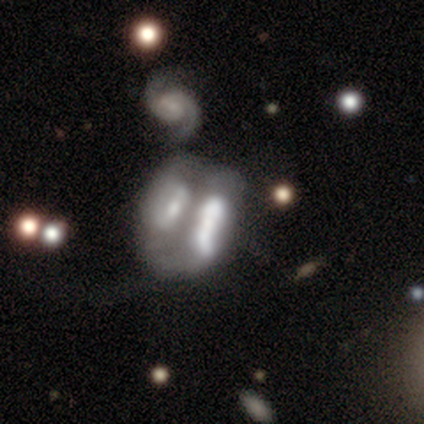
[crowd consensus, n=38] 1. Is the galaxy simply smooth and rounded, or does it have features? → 66% featured or disk, 26% smooth, 8% star or artifact.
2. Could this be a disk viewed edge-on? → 88% no, 12% yes.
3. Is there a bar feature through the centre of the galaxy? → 64% no, 27% strong, 9% weak.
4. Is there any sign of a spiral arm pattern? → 86% no, 14% yes.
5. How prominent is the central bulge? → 32% none, 23% small, 18% dominant, 18% large, 9% moderate.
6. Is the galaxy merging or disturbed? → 80% merger, 3% none, 3% minor disturbance, 3% major disturbance.